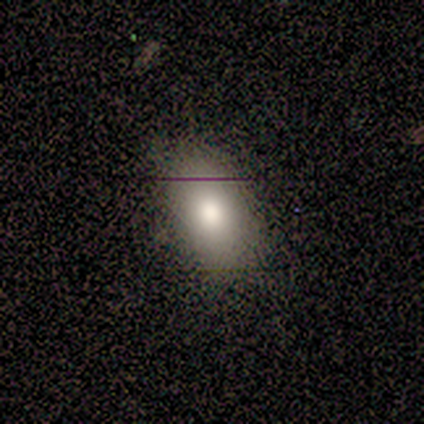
Smooth or featured? 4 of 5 (80%) said smooth. How rounded? 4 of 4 (100%) said in between. Merging? 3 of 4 (75%) said none.